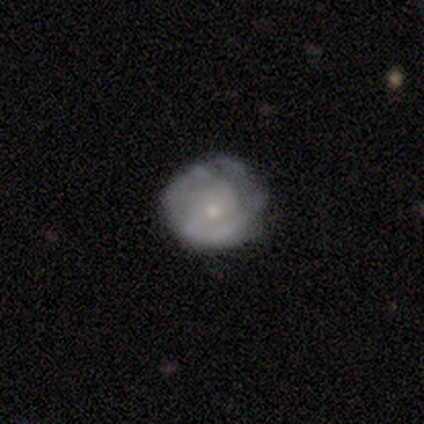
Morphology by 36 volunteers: A featured or disk galaxy (64%) with no bar (83%), no spiral arms (70%) and a small central bulge (70%). Merging: none (51%).